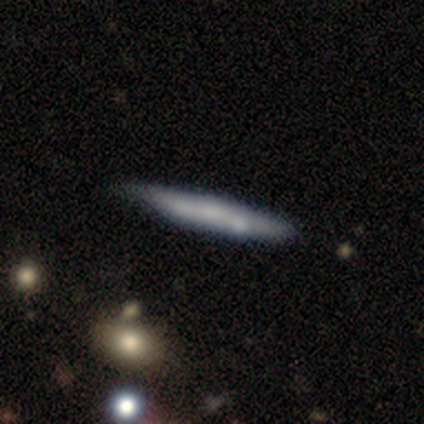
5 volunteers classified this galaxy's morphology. Q: Smooth or featured?
A: smooth (100%)
Q: How rounded?
A: cigar-shaped (80%); runner-up: in between (20%)
Q: Merging?
A: none (80%); runner-up: merger (20%)